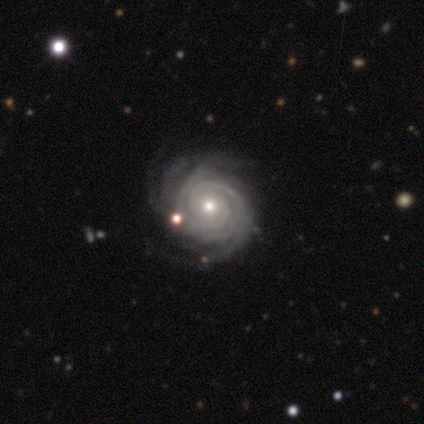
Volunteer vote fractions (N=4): smooth-or-featured: featured or disk: 100% | smooth: 0% | star or artifact: 0%
  disk-edge-on: no: 100% | yes: 0%
    bar: no: 75% | weak: 25% | strong: 0%
    has-spiral-arms: yes: 100% | no: 0%
      spiral-winding: tight: 100% | medium: 0% | loose: 0%
      spiral-arm-count: 2: 25% (tied) | 3: 25% (tied) | 4: 25% (tied) | more than 4: 25% (tied) | 1: 0% | can't tell: 0%
    bulge-size: small: 75% | moderate: 25% | dominant: 0% | large: 0% | none: 0%
  merging: none: 100% | minor disturbance: 0% | major disturbance: 0% | merger: 0%